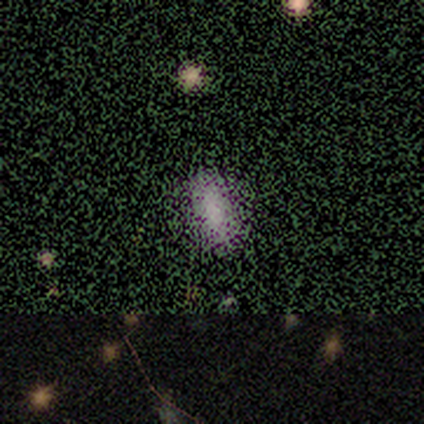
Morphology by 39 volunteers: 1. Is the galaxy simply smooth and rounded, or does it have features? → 64% smooth, 33% star or artifact, 3% featured or disk.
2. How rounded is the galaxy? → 96% in between, 4% cigar-shaped, 0% round.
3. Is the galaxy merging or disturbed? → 69% none, 8% major disturbance, 4% minor disturbance, 0% merger.